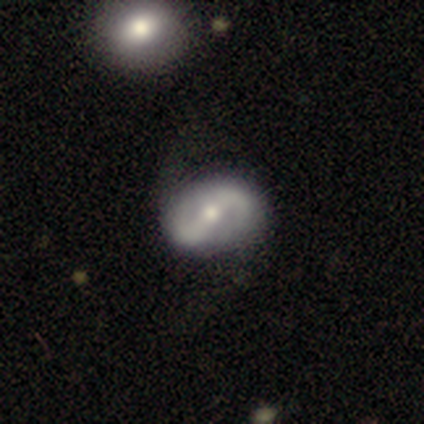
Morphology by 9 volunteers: Smooth or featured? 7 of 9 (78%) said featured or disk. Edge-on disk? 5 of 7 (71%) said no. Bar? 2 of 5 (40%, tied with no) said weak. Spiral arms? 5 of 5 (100%) said yes. Spiral winding? 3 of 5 (60%) said loose. Spiral arm count? 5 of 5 (100%) said 2. Bulge size? 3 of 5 (60%) said moderate. Merging? 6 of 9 (67%) said none.